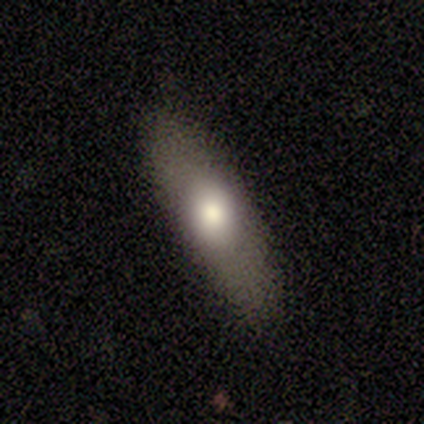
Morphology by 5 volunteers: smooth 60%, featured or disk 20%, star or artifact 20%. Down the decision tree: how rounded — in between (67%); merging — none (50%, tied with minor disturbance).